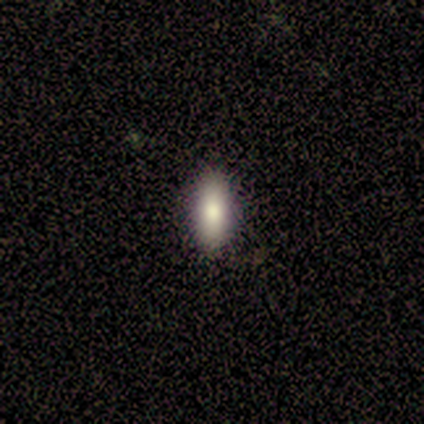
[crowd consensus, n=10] Smooth or featured: smooth — 100%
How rounded: in between — 70% (cigar-shaped — 30%)
Merging: none — 90% (minor disturbance — 10%)